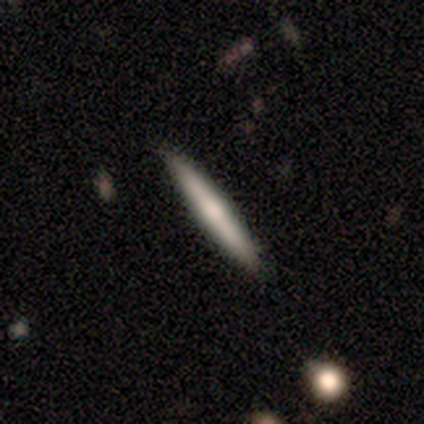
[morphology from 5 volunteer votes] smooth-or-featured: smooth: 40% (tied) | featured or disk: 40% (tied) | star or artifact: 20%
  how-rounded: cigar-shaped: 100% | round: 0% | in between: 0%
  merging: none: 100% | minor disturbance: 0% | major disturbance: 0% | merger: 0%